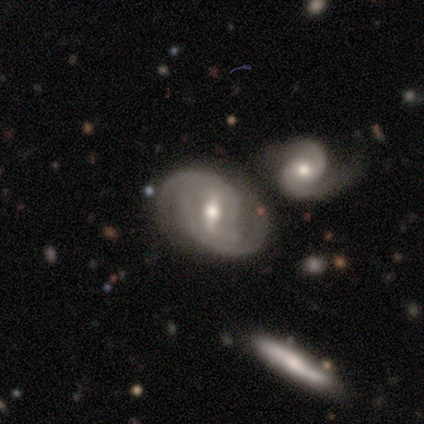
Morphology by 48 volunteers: type=featured or disk (88%); edge-on=no (95%); bar=weak (52%); spiral arms=yes (95%); winding=medium (55%); arm count=2 (79%); bulge=moderate (78%); merging=none (48%).